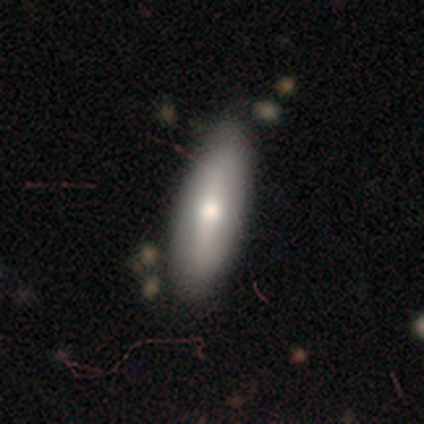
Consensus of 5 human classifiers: Q: Smooth or featured?
A: smooth (80%); runner-up: featured or disk (20%)
Q: How rounded?
A: in between (75%); runner-up: cigar-shaped (25%)
Q: Merging?
A: none (80%); runner-up: minor disturbance (20%)